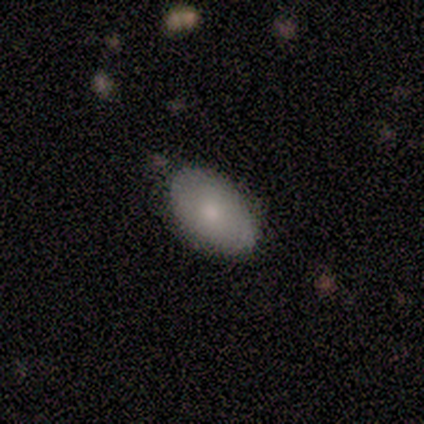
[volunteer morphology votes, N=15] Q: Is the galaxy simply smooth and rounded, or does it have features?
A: smooth — 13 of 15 (87%).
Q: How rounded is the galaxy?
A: in between — 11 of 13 (85%).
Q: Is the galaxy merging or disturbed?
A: none — 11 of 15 (73%).